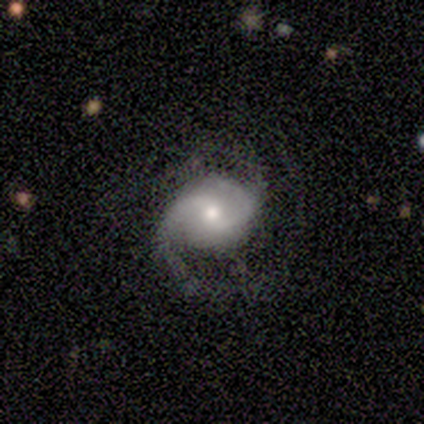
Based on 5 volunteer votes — Smooth or featured? 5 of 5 (100%) said featured or disk. Edge-on disk? 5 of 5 (100%) said no. Bar? 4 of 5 (80%) said weak. Spiral arms? 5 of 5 (100%) said yes. Spiral winding? 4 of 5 (80%) said loose. Spiral arm count? 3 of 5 (60%) said 2. Bulge size? 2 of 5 (40%, tied with small) said large. Merging? 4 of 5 (80%) said none.